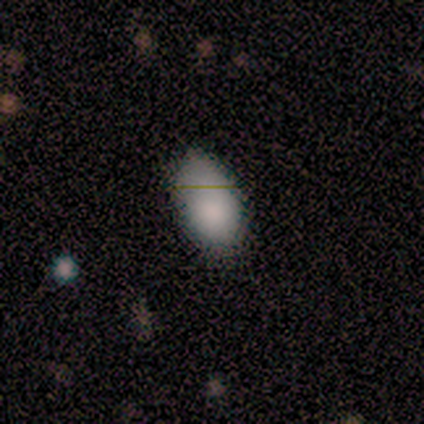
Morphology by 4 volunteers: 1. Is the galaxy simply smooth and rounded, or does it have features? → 100% smooth, 0% featured or disk, 0% star or artifact.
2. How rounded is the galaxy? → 100% in between, 0% round, 0% cigar-shaped.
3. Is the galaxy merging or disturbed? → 50% none, 25% minor disturbance, 25% major disturbance, 0% merger.